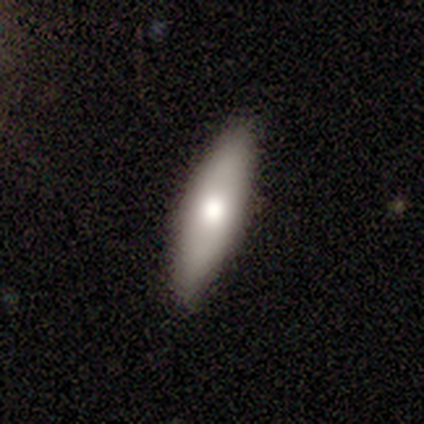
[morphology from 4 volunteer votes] A smooth galaxy with no disk features (50%) that is in between round and cigar-shaped (50%, tied with cigar-shaped).

Vote fractions:
- Smooth or featured? smooth: 50% / featured or disk: 25% / star or artifact: 25%
- How rounded? in between: 50% (tied) / cigar-shaped: 50% (tied) / round: 0%
- Merging? none: 100% / minor disturbance: 0% / major disturbance: 0% / merger: 0%